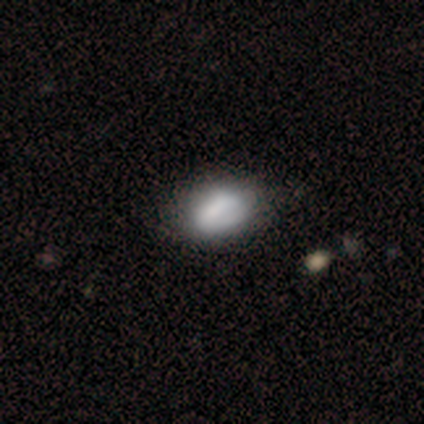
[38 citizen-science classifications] smooth 63%, featured or disk 34%, star or artifact 3%. Down the decision tree: how rounded — in between (75%); merging — none (41%).